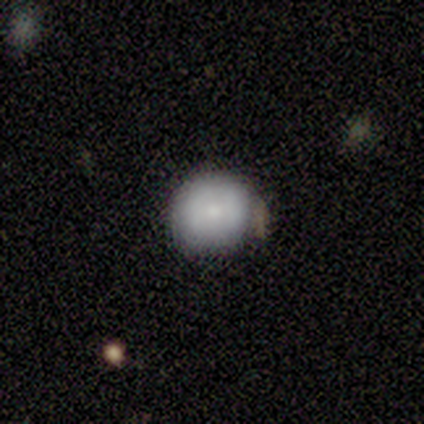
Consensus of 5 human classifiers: Smooth or featured? 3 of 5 (60%) said smooth. How rounded? 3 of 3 (100%) said round. Merging? 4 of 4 (100%) said none.